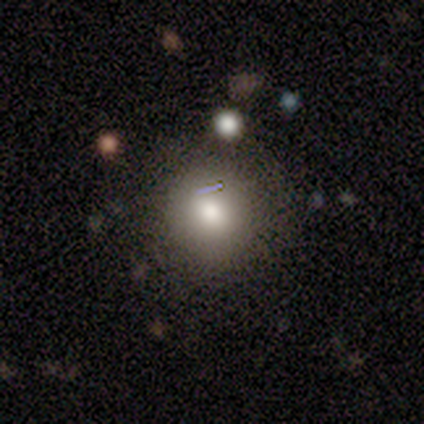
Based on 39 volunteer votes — smooth 74%, featured or disk 18%, star or artifact 8%. Down the decision tree: how rounded — round (90%); merging — none (78%).